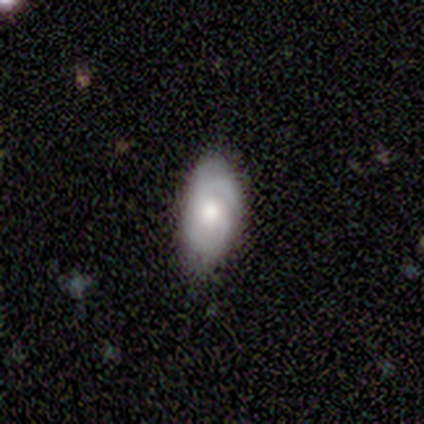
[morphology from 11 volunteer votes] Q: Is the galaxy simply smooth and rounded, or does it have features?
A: featured or disk — 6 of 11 (55%).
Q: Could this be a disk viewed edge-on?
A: no — 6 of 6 (100%).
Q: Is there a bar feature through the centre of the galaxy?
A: no — 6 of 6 (100%).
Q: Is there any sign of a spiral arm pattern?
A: yes — 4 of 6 (67%).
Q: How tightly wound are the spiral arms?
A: tight — 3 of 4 (75%).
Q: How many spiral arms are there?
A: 2 — 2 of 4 (50%, tied with can't tell).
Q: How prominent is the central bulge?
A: moderate — 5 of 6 (83%).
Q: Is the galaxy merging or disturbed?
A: minor disturbance — 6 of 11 (55%).